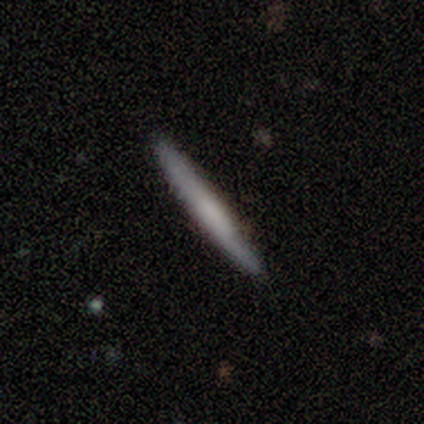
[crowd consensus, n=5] smooth_or_featured: featured or disk (p=0.60) [alt: smooth p=0.40]
disk_edge_on: yes (p=1.00)
edge_on_bulge: none (p=0.67) [alt: boxy p=0.33]
merging: none (p=0.80) [alt: minor disturbance p=0.20]